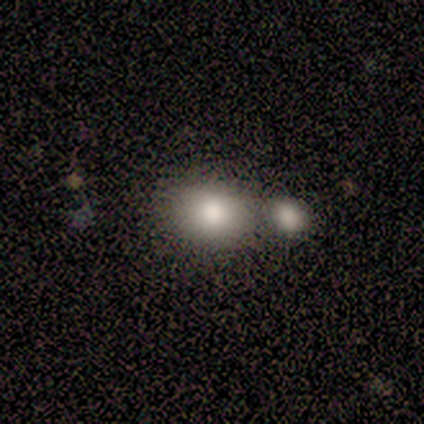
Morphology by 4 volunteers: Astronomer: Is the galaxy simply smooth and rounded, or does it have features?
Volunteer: smooth — 75%.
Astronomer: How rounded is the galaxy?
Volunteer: in between — 67%.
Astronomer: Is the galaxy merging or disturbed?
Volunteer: none — 75%.